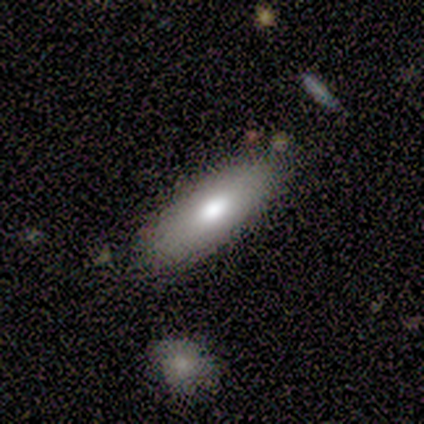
Smooth or featured? smooth (100%)
How rounded? in between (80%)
Merging? none (100%)